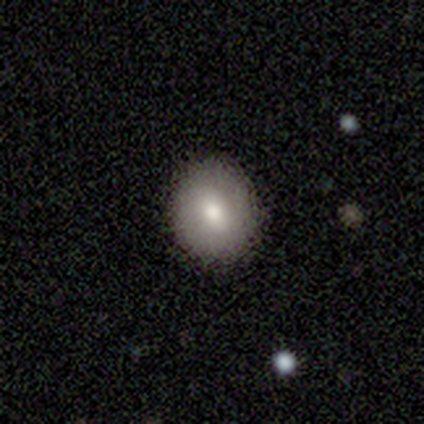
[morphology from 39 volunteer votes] A smooth galaxy with no disk features (69%) that is round (81%).

Vote fractions:
- Smooth or featured? smooth: 69% / featured or disk: 23% / star or artifact: 8%
- How rounded? round: 81% / in between: 19% / cigar-shaped: 0%
- Merging? none: 83% / minor disturbance: 11% / major disturbance: 6% / merger: 0%